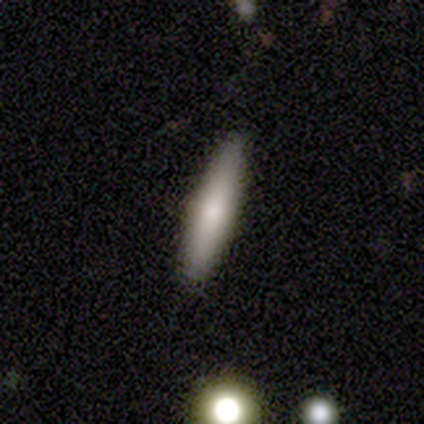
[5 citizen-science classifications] smooth_or_featured: smooth (p=0.80) [alt: featured or disk p=0.20]
how_rounded: cigar-shaped (p=1.00)
merging: none (p=1.00)